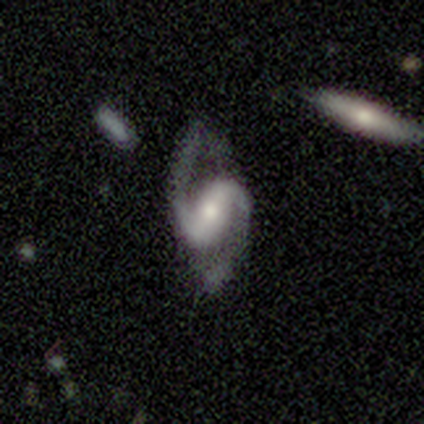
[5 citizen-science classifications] Smooth or featured? featured or disk (100%)
Edge-on disk? no (100%)
Bar? strong (40%, tied with weak)
Spiral arms? yes (100%)
Spiral winding? medium (60%)
Spiral arm count? 2 (100%)
Bulge size? moderate (60%)
Merging? none (40%, tied with minor disturbance)